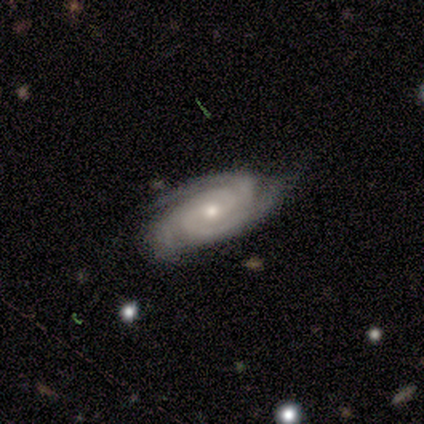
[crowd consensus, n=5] Volunteers were most divided on "bulge size": moderate: 50%, large: 25%, small: 25%, dominant: 0%, none: 0%. More confident: edge-on disk — no (100%); smooth or featured — featured or disk (80%); merging — none (80%); bar — weak (75%); spiral arms — yes (75%); spiral winding — tight (67%); spiral arm count — 2 (67%).